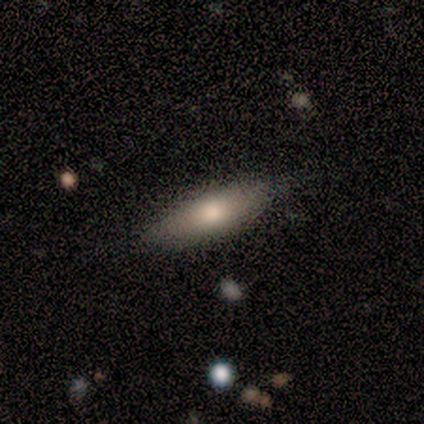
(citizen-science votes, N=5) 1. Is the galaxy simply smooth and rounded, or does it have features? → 100% smooth, 0% featured or disk, 0% star or artifact.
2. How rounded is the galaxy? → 60% in between, 40% cigar-shaped, 0% round.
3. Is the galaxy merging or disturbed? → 40% none (tied), 40% minor disturbance (tied), 20% major disturbance, 0% merger.